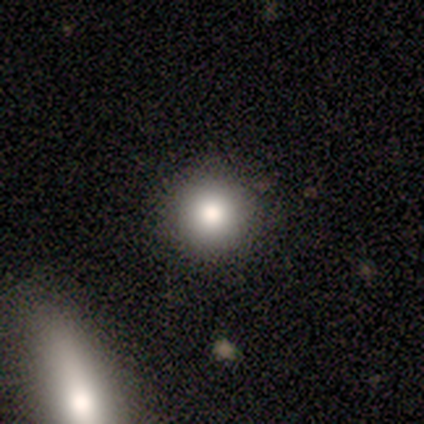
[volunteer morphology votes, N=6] smooth 67%, featured or disk 17%, star or artifact 17%. Down the decision tree: how rounded — round (100%); merging — none (100%).